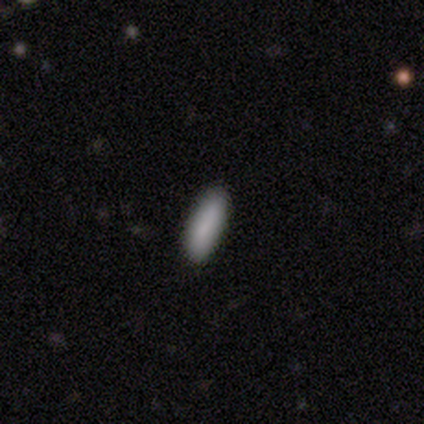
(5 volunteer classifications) This appears to be a smooth galaxy with no disk features (80%) that is in between round and cigar-shaped (50%, tied with cigar-shaped). Merging: none (100%).